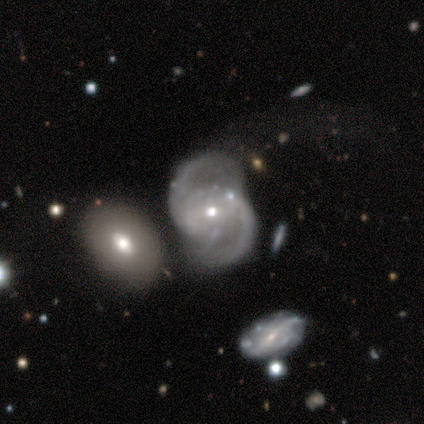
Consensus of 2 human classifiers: Smooth or featured: featured or disk — 100%
Edge-on disk: no — 100%
Bar: weak — 100%
Spiral arms: yes — 100%
Spiral winding: medium — 100%
Spiral arm count: 2 — 100%
Bulge size: small — 100%
Merging: none — 100%